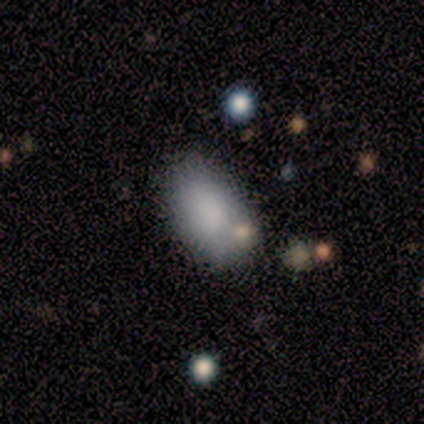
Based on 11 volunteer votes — Smooth or featured? 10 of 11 (91%) said smooth. How rounded? 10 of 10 (100%) said in between. Merging? 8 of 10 (80%) said none.